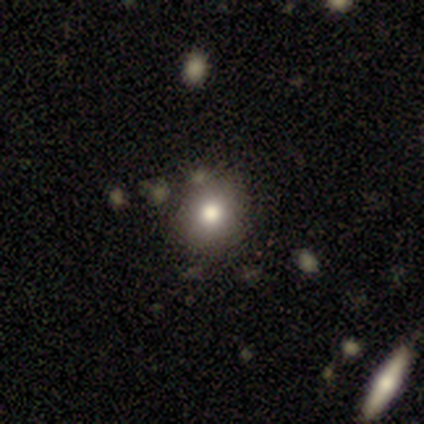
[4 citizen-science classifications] Q: Smooth or featured?
A: smooth (75%); runner-up: featured or disk (25%)
Q: How rounded?
A: round (100%)
Q: Merging?
A: none (100%)